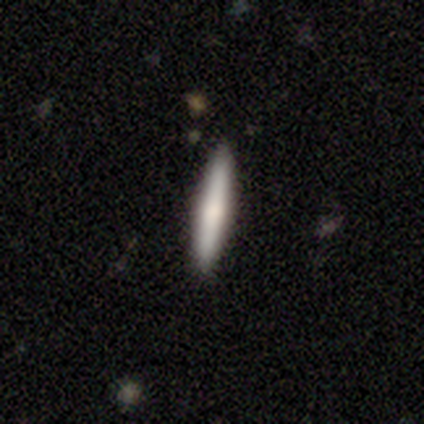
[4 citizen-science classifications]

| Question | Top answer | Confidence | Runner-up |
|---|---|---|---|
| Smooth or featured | smooth | 50% | tied: featured or disk (50%) |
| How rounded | cigar-shaped | 100% | — |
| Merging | none | 100% | — |